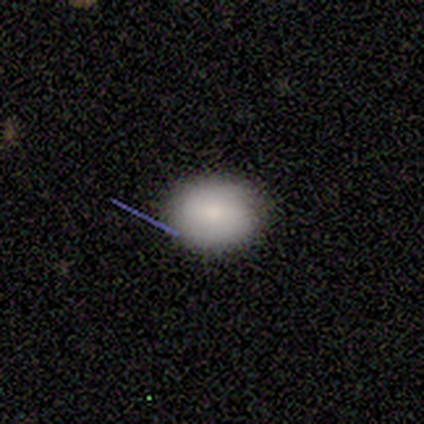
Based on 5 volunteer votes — Q: Smooth or featured?
A: smooth (100%)
Q: How rounded?
A: in between (60%); runner-up: round (40%)
Q: Merging?
A: none (80%); runner-up: minor disturbance (20%)